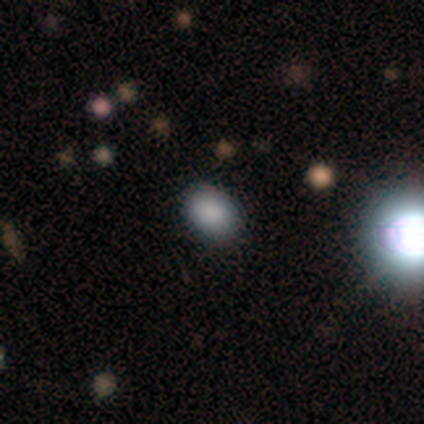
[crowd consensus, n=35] This is likely a smooth galaxy (77%). How rounded: likely in between (74%). Merging: clearly none (96%).